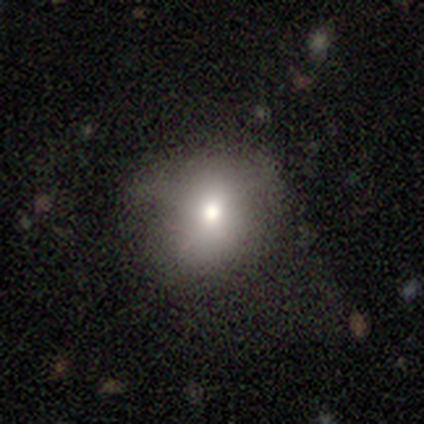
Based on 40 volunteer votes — Volunteers were most divided on "merging": none: 32%, minor disturbance: 19%, major disturbance: 11%, merger: 0%. More confident: smooth or featured — smooth (80%); how rounded — round (69%).